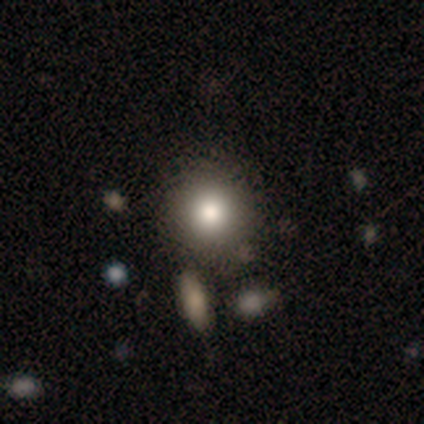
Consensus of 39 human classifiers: Smooth or featured? smooth (74%)
How rounded? round (90%)
Merging? none (62%)